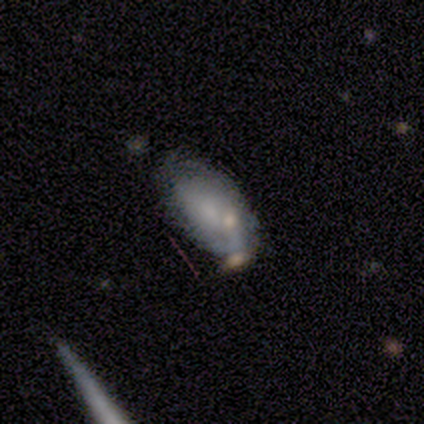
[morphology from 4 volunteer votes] Overall: smooth (50%; featured or disk 25%). How rounded: in between (100%). Merging: none (67%; minor disturbance 33%).